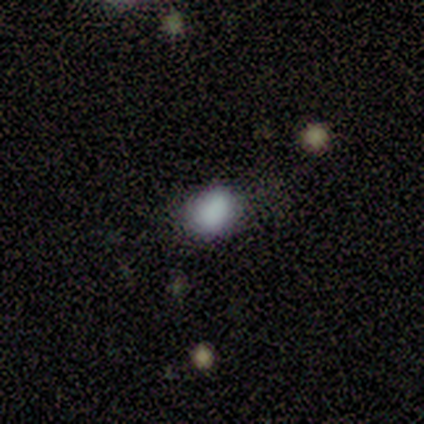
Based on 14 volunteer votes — A smooth galaxy with no disk features (93%) that is in between round and cigar-shaped (54%).

Vote fractions:
- Smooth or featured? smooth: 93% / featured or disk: 7% / star or artifact: 0%
- How rounded? in between: 54% / round: 46% / cigar-shaped: 0%
- Merging? none: 71% / minor disturbance: 29% / major disturbance: 0% / merger: 0%